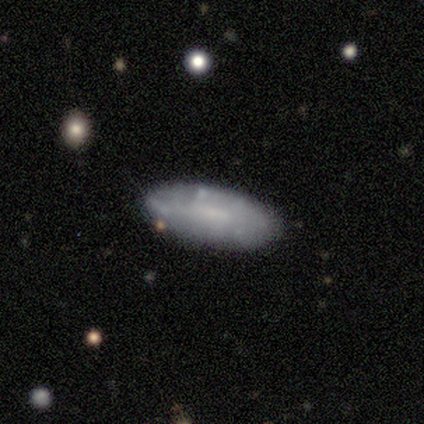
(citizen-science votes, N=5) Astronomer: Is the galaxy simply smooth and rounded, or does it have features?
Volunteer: smooth — 60% (runner-up: featured or disk, 40%).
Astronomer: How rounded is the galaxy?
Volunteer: in between — 100%.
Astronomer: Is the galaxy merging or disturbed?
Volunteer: none — 60% (runner-up: minor disturbance, 40%).